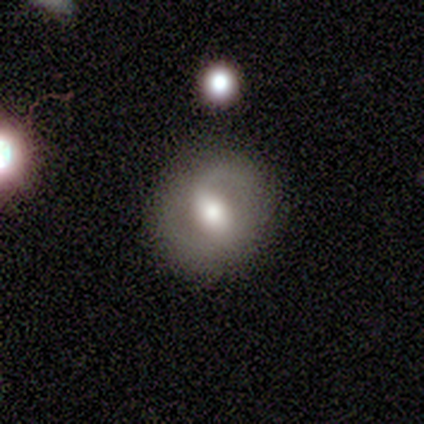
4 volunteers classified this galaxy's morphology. featured or disk 75%, smooth 25%, star or artifact 0%. Down the decision tree: edge-on disk — no (100%); bar — strong (100%); spiral arms — yes (67%); spiral arm count — 2 (100%); spiral winding — medium (50%, tied with loose); bulge size — moderate (67%); merging — none (100%).